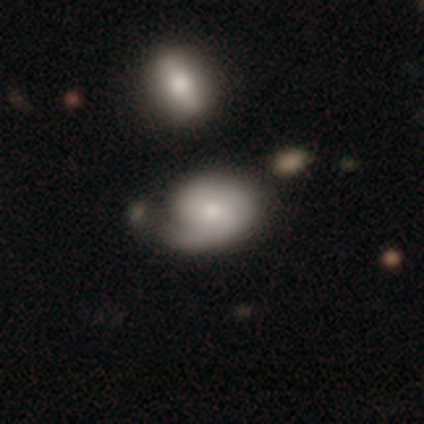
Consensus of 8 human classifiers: smooth-or-featured: featured or disk: 75% | smooth: 25% | star or artifact: 0%
  disk-edge-on: no: 100% | yes: 0%
    bar: weak: 67% | no: 33% | strong: 0%
    has-spiral-arms: yes: 100% | no: 0%
      spiral-winding: medium: 67% | tight: 33% | loose: 0%
      spiral-arm-count: 2: 83% | 1: 17% | 3: 0% | 4: 0% | more than 4: 0% | can't tell: 0%
    bulge-size: small: 67% | dominant: 17% | moderate: 17% | large: 0% | none: 0%
  merging: none: 50% | minor disturbance: 25% | merger: 25% | major disturbance: 0%